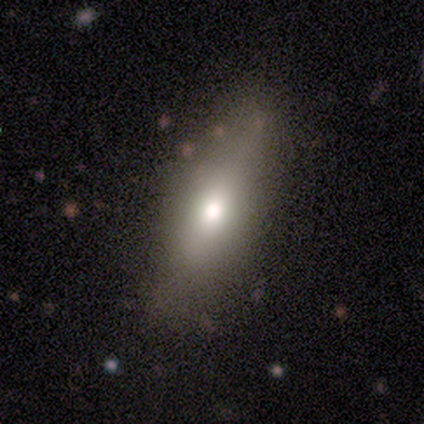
A smooth galaxy with no disk features (66%) that is in between round and cigar-shaped (59%). Merging: none (70%).